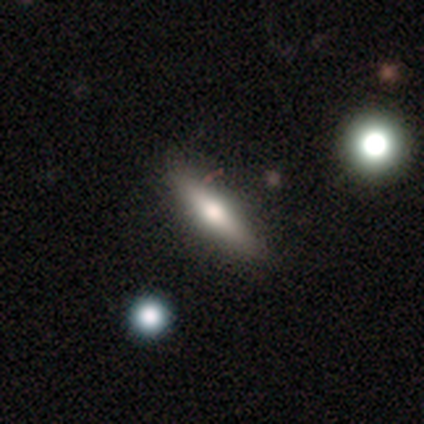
Volunteers were most divided on "smooth or featured": featured or disk: 80%, smooth: 20%, star or artifact: 0%. More confident: edge-on disk — yes (100%); edge-on bulge — rounded (100%); merging — none (100%).